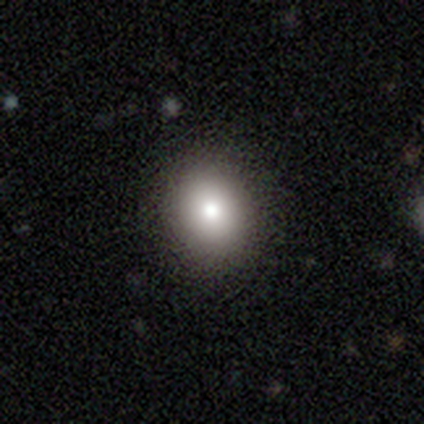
Smooth or featured? smooth (60%)
How rounded? in between (67%)
Merging? none (100%)